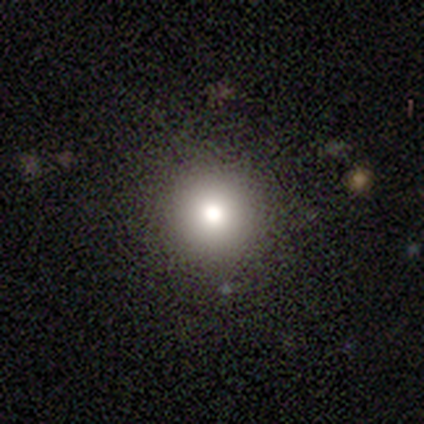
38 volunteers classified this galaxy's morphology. This appears to be a smooth galaxy with no disk features (74%) that is round (100%). Merging: none (97%).